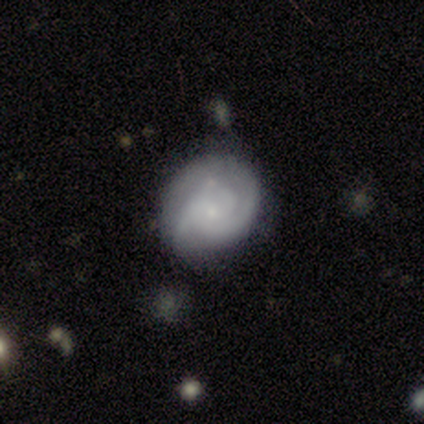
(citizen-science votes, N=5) A featured or disk galaxy (100%) with a weak bar (80%), 2 (40%, tied with can't tell) medium (80%) spiral arms (100%) and a small central bulge (60%). Merging: minor disturbance (40%).